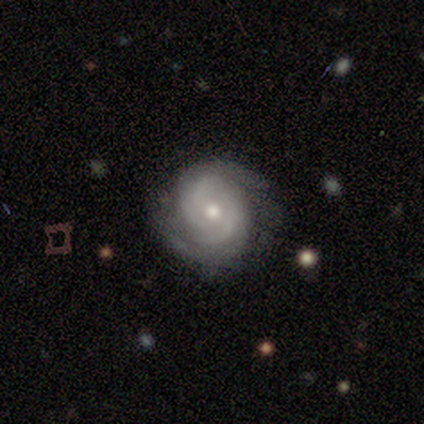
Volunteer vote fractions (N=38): A featured or disk galaxy (87%) with no bar (62%), 2 (50%) tight (59%) spiral arms (100%) and a moderate central bulge (47%, tied with small).

Vote fractions:
- Smooth or featured? featured or disk: 87% / smooth: 11% / star or artifact: 3%
- Edge-on disk? no: 97% / yes: 3%
- Bar? no: 62% / weak: 34% / strong: 3%
- Spiral arms? yes: 100% / no: 0%
- Spiral winding? tight: 59% / medium: 34% / loose: 6%
- Spiral arm count? 2: 50% / 3: 19% / 4: 16% / can't tell: 16% / 1: 0% / more than 4: 0%
- Bulge size? moderate: 47% (tied) / small: 47% (tied) / large: 3% / none: 3% / dominant: 0%
- Merging? none: 78% / major disturbance: 14% / minor disturbance: 8% / merger: 0%